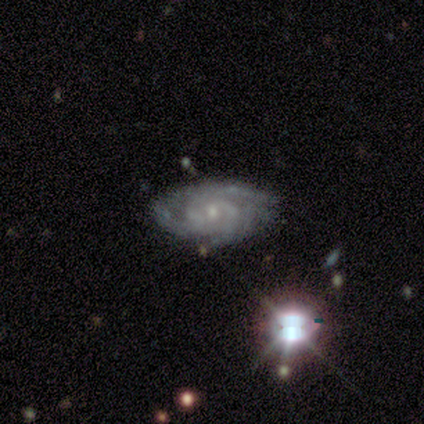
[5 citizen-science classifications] Smooth or featured? 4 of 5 (80%) said featured or disk. Edge-on disk? 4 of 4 (100%) said no. Bar? 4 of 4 (100%) said no. Spiral arms? 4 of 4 (100%) said yes. Spiral winding? 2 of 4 (50%, tied with medium) said tight. Spiral arm count? 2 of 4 (50%) said 3. Bulge size? 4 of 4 (100%) said small. Merging? 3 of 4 (75%) said none.